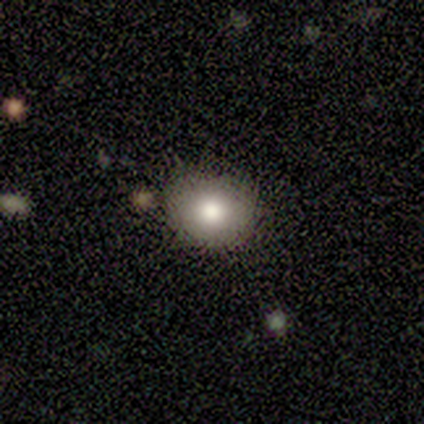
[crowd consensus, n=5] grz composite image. It shows a smooth galaxy with no disk features (80%) that is round (75%). Merging: none (75%).